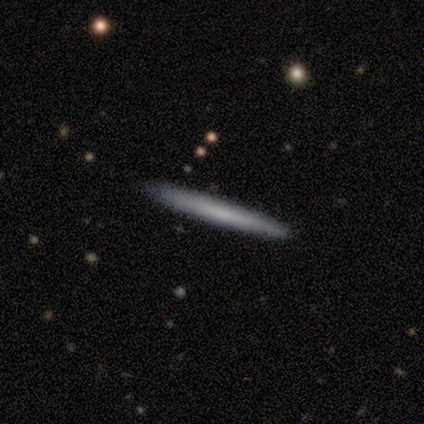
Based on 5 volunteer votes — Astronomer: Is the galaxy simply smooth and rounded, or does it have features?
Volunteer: featured or disk — 60% (runner-up: smooth, 40%).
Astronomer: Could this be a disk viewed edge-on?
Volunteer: yes — 100%.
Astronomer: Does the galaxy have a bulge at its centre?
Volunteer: none — 67%.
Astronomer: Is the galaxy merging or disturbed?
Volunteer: none — 80%.